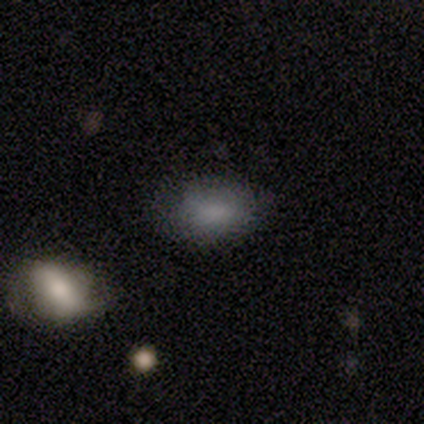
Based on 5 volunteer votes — Smooth or featured?
  - smooth: 80% *
  - featured or disk: 20%
  - star or artifact: 0%
How rounded?
  - round: 50% * (tied)
  - in between: 50% * (tied)
  - cigar-shaped: 0%
Merging?
  - none: 60% *
  - minor disturbance: 40%
  - major disturbance: 0%
  - merger: 0%